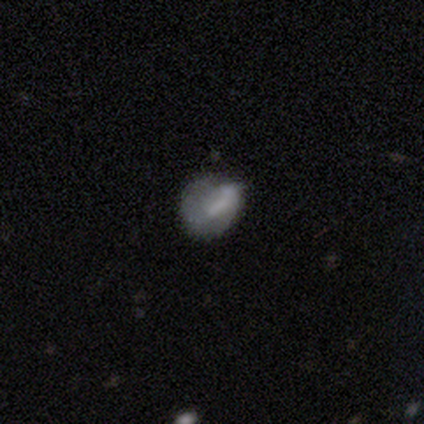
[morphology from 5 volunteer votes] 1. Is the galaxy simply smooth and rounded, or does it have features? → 80% smooth, 20% featured or disk, 0% star or artifact.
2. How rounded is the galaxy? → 75% round, 25% in between, 0% cigar-shaped.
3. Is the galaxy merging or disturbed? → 60% minor disturbance, 20% none, 20% merger, 0% major disturbance.